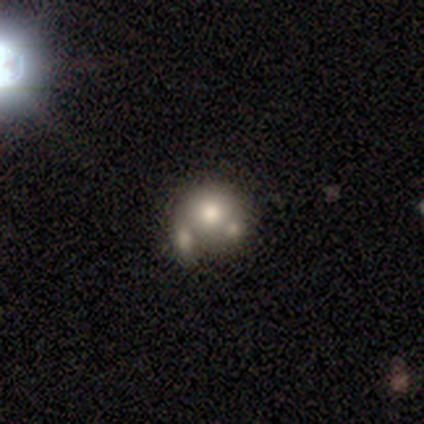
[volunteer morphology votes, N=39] Smooth or featured?
  - smooth: 56% *
  - featured or disk: 26%
  - star or artifact: 18%
How rounded?
  - round: 86% *
  - in between: 14%
  - cigar-shaped: 0%
Merging?
  - merger: 38% *
  - none: 34%
  - minor disturbance: 22%
  - major disturbance: 6%